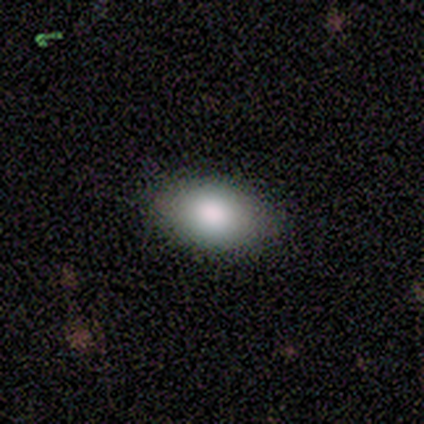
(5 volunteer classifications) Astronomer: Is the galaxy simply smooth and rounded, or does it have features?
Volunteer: smooth — 80%.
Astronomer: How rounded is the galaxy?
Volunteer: in between — 100%.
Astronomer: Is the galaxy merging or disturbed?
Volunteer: none — 100%.